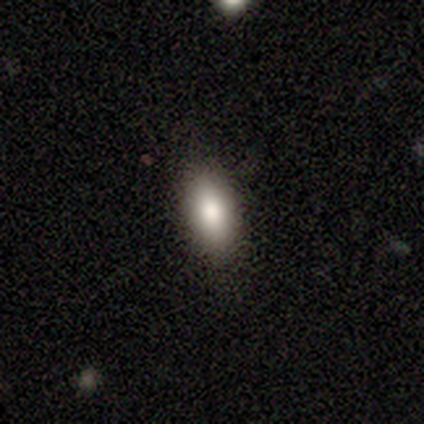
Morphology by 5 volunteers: Smooth or featured?
  - smooth: 100% *
  - featured or disk: 0%
  - star or artifact: 0%
How rounded?
  - in between: 100% *
  - round: 0%
  - cigar-shaped: 0%
Merging?
  - none: 100% *
  - minor disturbance: 0%
  - major disturbance: 0%
  - merger: 0%